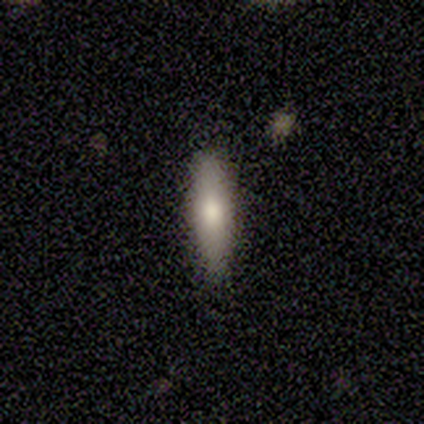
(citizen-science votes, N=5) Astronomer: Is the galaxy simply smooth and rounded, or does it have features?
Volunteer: smooth — 60% (runner-up: featured or disk, 40%).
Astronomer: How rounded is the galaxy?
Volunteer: in between — 67%.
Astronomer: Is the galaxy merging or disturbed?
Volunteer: none — 80%.